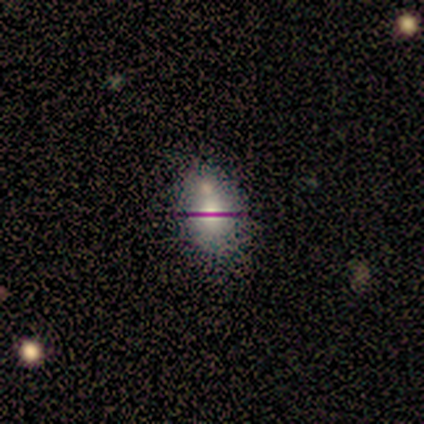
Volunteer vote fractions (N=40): Volunteers were most divided on "smooth or featured": smooth: 55%, star or artifact: 25%, featured or disk: 20%. More confident: how rounded — in between (86%); merging — none (70%).